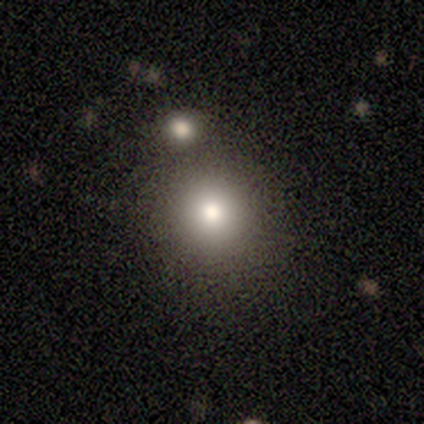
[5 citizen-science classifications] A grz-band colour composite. It shows a smooth galaxy with no disk features (100%) that is round (100%). Merging: none (80%).